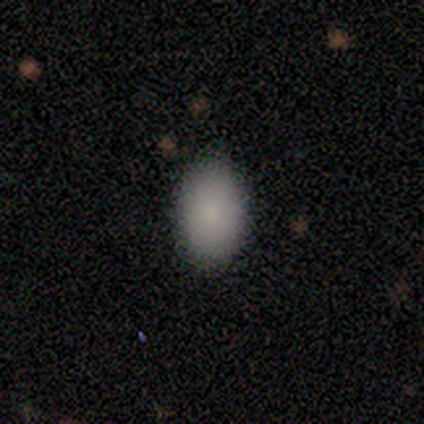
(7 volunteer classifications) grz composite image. It shows a smooth galaxy with no disk features (100%) that is in between round and cigar-shaped (100%). Merging: none (86%).